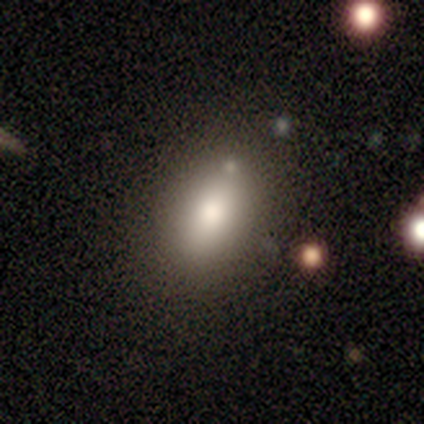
smooth 38% (tied), star or artifact 38% (tied), featured or disk 25%. Down the decision tree: how rounded — in between (100%); merging — none (80%).